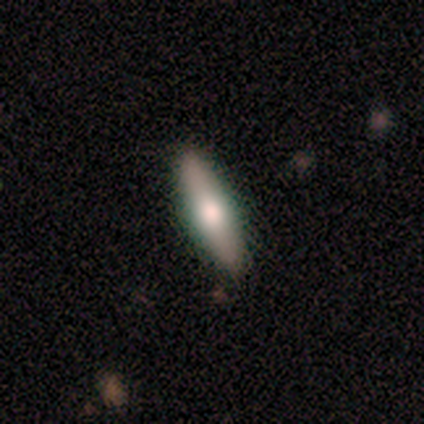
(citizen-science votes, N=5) smooth-or-featured: featured or disk: 60% | smooth: 40% | star or artifact: 0%
  disk-edge-on: yes: 100% | no: 0%
    edge-on-bulge: rounded: 100% | boxy: 0% | none: 0%
  merging: none: 80% | minor disturbance: 20% | major disturbance: 0% | merger: 0%